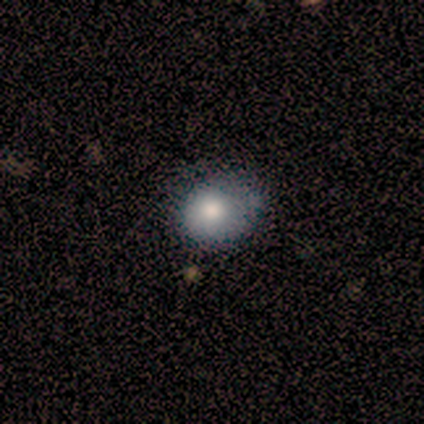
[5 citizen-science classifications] Morphology: type=smooth (80%); roundness=in between (100%); merging=minor disturbance (75%).